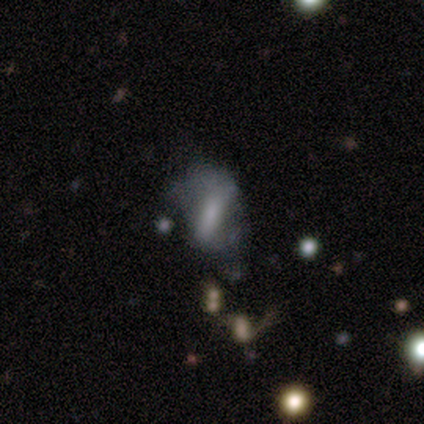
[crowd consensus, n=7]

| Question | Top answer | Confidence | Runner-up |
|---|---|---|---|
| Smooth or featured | featured or disk | 71% | smooth (29%) |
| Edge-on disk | no | 100% | — |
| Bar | strong | 40% | tied: weak (40%) |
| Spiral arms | yes | 100% | — |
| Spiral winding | loose | 60% | tight (20%) |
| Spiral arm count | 2 | 80% | can't tell (20%) |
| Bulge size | none | 40% | large (20%) |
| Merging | major disturbance | 43% | minor disturbance (29%) |